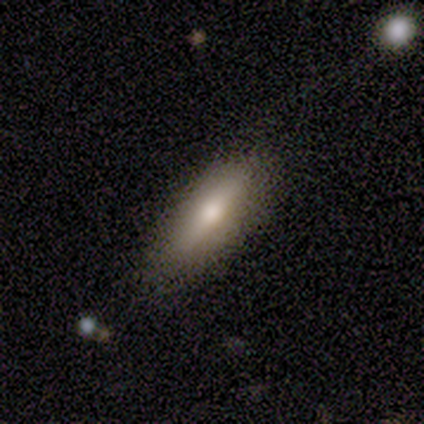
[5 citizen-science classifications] This appears to be a smooth galaxy with no disk features (40%, tied with featured or disk) that is in between round and cigar-shaped (100%). Merging: none (100%).